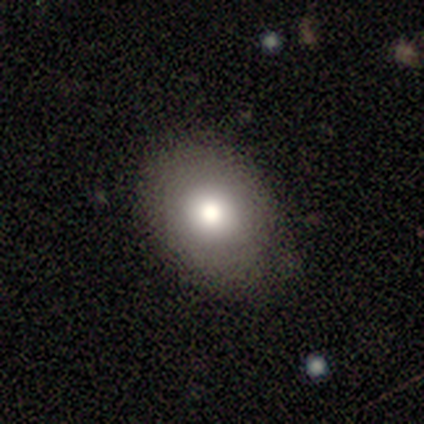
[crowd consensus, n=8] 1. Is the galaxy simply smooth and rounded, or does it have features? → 88% smooth, 12% featured or disk, 0% star or artifact.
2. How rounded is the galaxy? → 100% in between, 0% round, 0% cigar-shaped.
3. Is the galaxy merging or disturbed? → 50% none (tied), 50% minor disturbance (tied), 0% major disturbance, 0% merger.